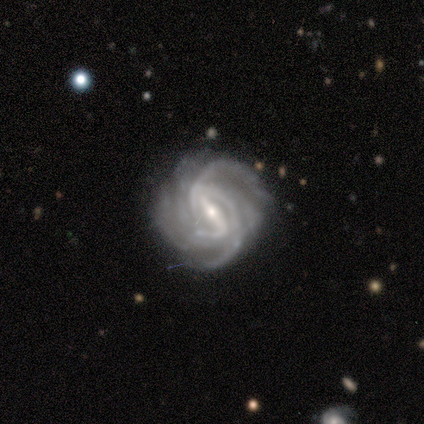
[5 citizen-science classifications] smooth_or_featured: featured or disk (p=1.00)
disk_edge_on: no (p=1.00)
bar: strong (p=0.80) [alt: weak p=0.20]
has_spiral_arms: yes (p=1.00)
spiral_winding: tight (p=0.60) [alt: medium p=0.40]
spiral_arm_count: 2 (p=0.60) [alt: 4 p=0.20]
bulge_size: small (p=0.80) [alt: moderate p=0.20]
merging: none (p=0.60) [alt: minor disturbance p=0.20]